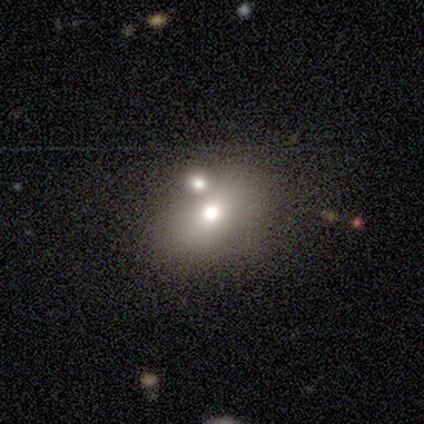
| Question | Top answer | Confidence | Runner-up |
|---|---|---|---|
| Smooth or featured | smooth | 61% | star or artifact (28%) |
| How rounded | in between | 77% | round (23%) |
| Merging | none | 46% | merger (35%) |